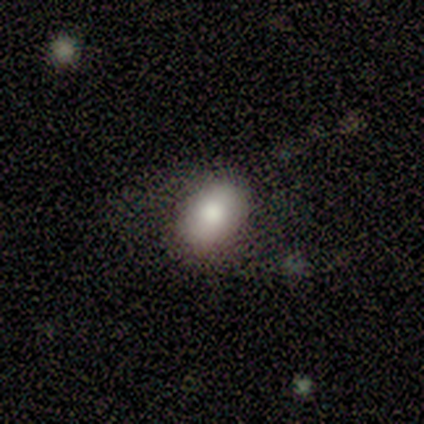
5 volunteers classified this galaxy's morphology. Smooth or featured: smooth — 100%
How rounded: in between — 80% (round — 20%)
Merging: none — 100%